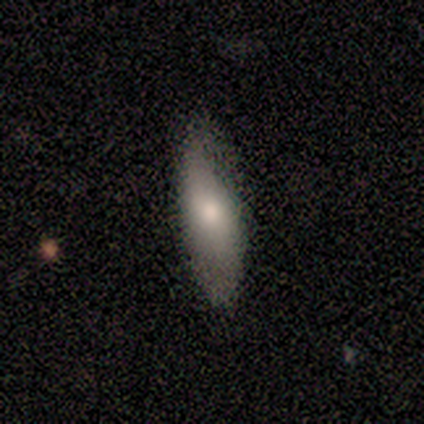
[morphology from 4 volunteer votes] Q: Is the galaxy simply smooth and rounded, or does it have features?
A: smooth — 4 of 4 (100%).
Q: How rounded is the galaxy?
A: in between — 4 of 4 (100%).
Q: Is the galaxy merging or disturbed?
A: none — 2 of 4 (50%, tied with minor disturbance).